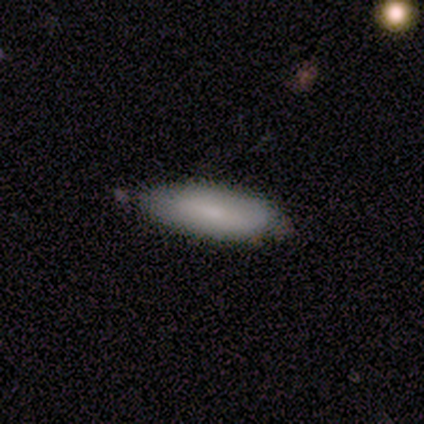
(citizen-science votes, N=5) smooth 60%, featured or disk 40%, star or artifact 0%. Down the decision tree: how rounded — in between (100%); merging — none (80%).